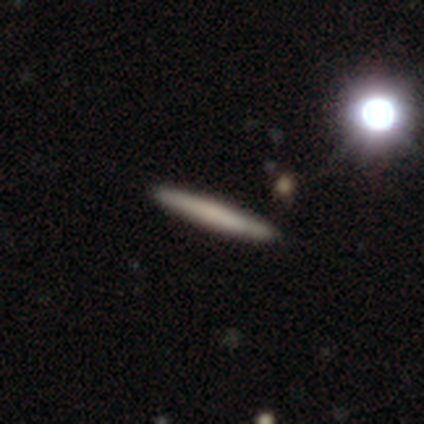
Q: Smooth or featured?
A: smooth (59%); runner-up: featured or disk (41%)
Q: How rounded?
A: cigar-shaped (100%)
Q: Merging?
A: none (90%); runner-up: major disturbance (5%)